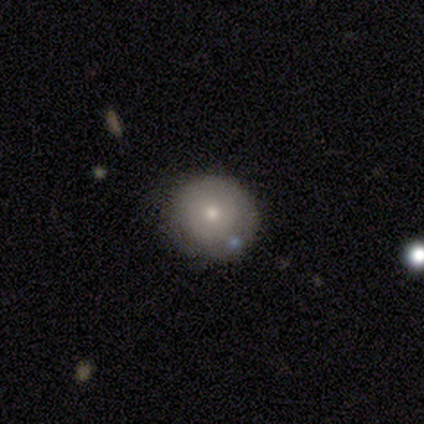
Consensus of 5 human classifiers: smooth-or-featured: smooth: 80% | featured or disk: 20% | star or artifact: 0%
  how-rounded: round: 100% | in between: 0% | cigar-shaped: 0%
  merging: none: 40% (tied) | minor disturbance: 40% (tied) | major disturbance: 20% | merger: 0%